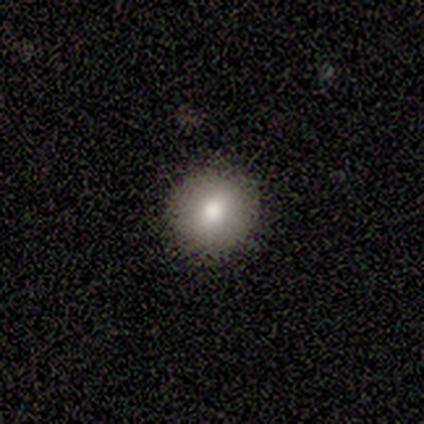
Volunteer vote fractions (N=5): A smooth galaxy with no disk features (100%) that is round (80%). Merging: none (80%).